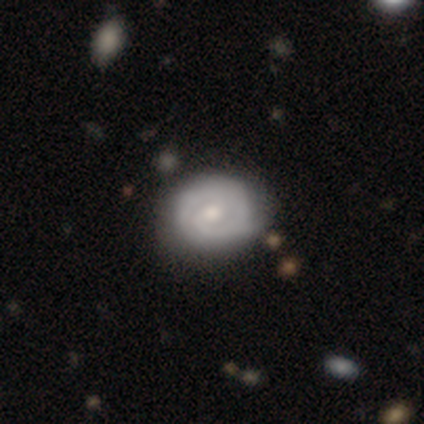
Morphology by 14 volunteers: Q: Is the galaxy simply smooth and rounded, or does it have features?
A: featured or disk — 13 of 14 (93%).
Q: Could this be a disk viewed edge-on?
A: no — 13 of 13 (100%).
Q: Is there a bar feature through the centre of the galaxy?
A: no — 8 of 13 (62%).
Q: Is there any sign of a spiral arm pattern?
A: yes — 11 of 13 (85%).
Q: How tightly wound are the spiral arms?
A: tight — 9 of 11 (82%).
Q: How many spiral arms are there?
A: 2 — 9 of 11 (82%).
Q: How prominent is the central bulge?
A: moderate — 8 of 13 (62%).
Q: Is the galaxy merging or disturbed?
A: none — 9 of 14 (64%).